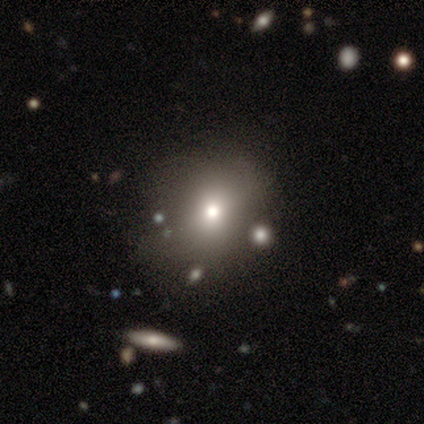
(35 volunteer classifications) Q: Smooth or featured?
A: smooth (71%); runner-up: star or artifact (17%)
Q: How rounded?
A: round (88%); runner-up: in between (12%)
Q: Merging?
A: none (66%); runner-up: minor disturbance (17%)